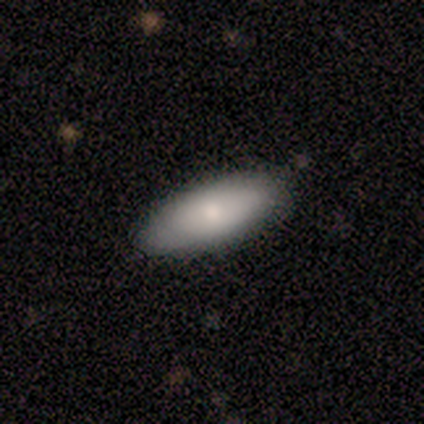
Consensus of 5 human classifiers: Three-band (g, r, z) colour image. It shows a smooth galaxy with no disk features (100%) that is in between round and cigar-shaped (80%). Merging: none (60%).